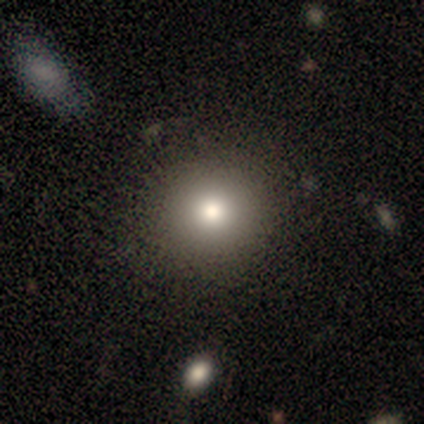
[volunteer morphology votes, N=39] A smooth galaxy with no disk features (67%) that is round (100%). Merging: none (61%).